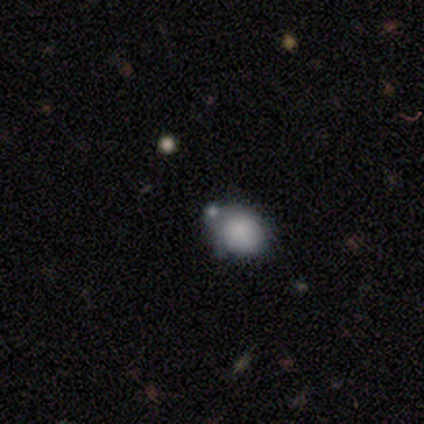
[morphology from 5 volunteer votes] smooth_or_featured: smooth (p=0.80) [alt: star or artifact p=0.20]
how_rounded: round (p=0.75) [alt: in between p=0.25]
merging: none (p=0.50) [alt: minor disturbance p=0.25]